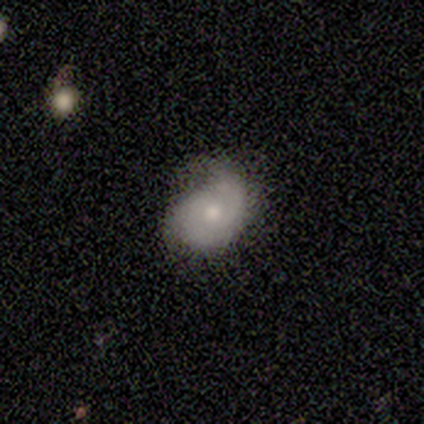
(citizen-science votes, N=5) Smooth or featured? 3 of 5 (60%) said smooth. How rounded? 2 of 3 (67%) said round. Merging? 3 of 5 (60%) said major disturbance.